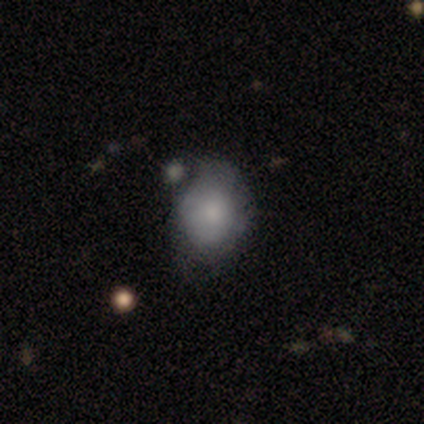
smooth 60%, featured or disk 40%, star or artifact 0%. Down the decision tree: how rounded — in between (67%); merging — minor disturbance (80%).